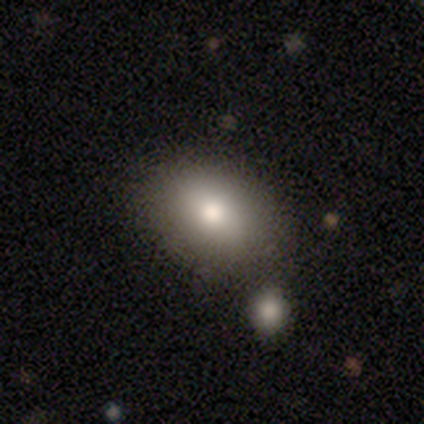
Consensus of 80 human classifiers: smooth 86%, featured or disk 9%, star or artifact 5%. Down the decision tree: how rounded — in between (87%); merging — none (79%).